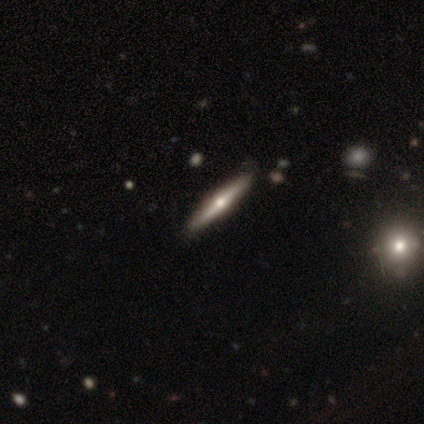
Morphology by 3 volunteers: This is marginally a smooth galaxy (33%, tied with featured or disk and star or artifact). How rounded: clearly cigar-shaped (100%). Merging: clearly none (100%).